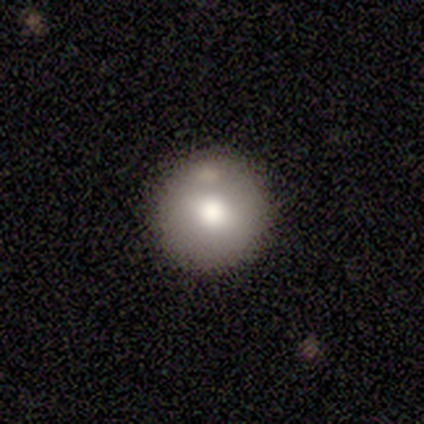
A smooth galaxy with no disk features (40%, tied with star or artifact) that is round (100%).

Vote fractions:
- Smooth or featured? smooth: 40% (tied) / star or artifact: 40% (tied) / featured or disk: 20%
- How rounded? round: 100% / in between: 0% / cigar-shaped: 0%
- Merging? none: 100% / minor disturbance: 0% / major disturbance: 0% / merger: 0%